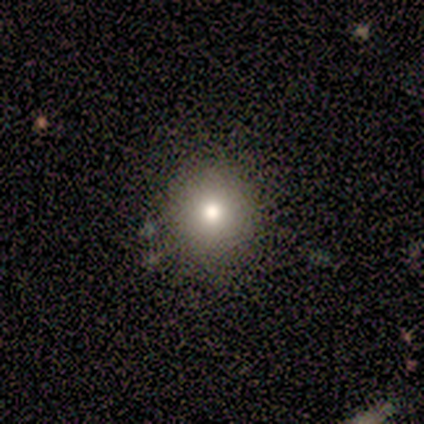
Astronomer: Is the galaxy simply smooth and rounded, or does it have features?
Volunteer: featured or disk — 100%.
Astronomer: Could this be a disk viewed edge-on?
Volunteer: no — 100%.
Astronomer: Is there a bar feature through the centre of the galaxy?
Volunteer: no — 100%.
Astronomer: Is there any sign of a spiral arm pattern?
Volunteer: no — 100%.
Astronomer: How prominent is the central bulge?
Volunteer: small — 100%.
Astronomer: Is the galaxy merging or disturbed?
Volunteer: none — 100%.